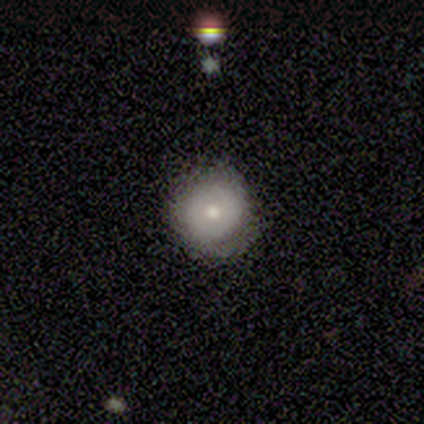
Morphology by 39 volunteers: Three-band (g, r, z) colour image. It shows a smooth galaxy with no disk features (54%) that is round (90%). Merging: none (57%).